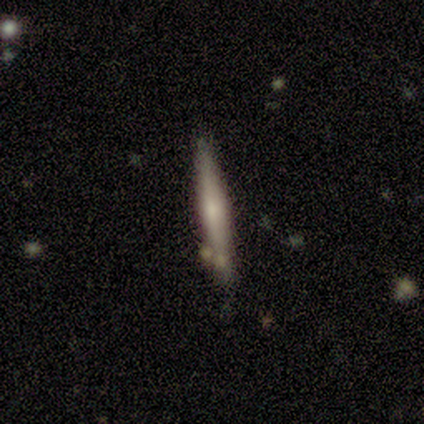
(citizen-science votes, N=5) smooth-or-featured: smooth: 60% | featured or disk: 40% | star or artifact: 0%
  how-rounded: cigar-shaped: 100% | round: 0% | in between: 0%
  merging: none: 100% | minor disturbance: 0% | major disturbance: 0% | merger: 0%